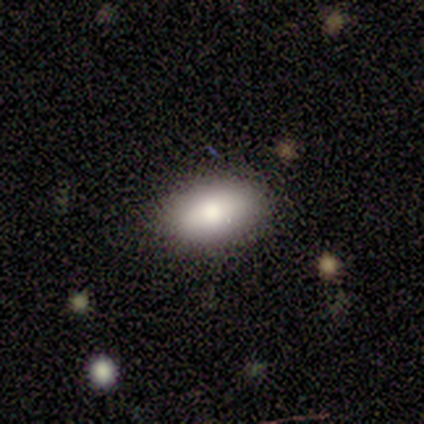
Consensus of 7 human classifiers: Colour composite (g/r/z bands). It shows a smooth galaxy with no disk features (86%) that is in between round and cigar-shaped (100%). Merging: none (100%).